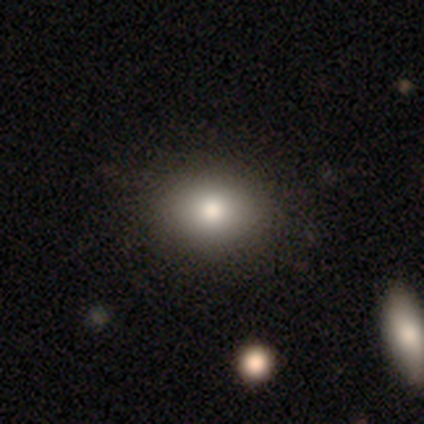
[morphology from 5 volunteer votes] A smooth galaxy with no disk features (100%) that is round (60%).

Vote fractions:
- Smooth or featured? smooth: 100% / featured or disk: 0% / star or artifact: 0%
- How rounded? round: 60% / in between: 40% / cigar-shaped: 0%
- Merging? none: 100% / minor disturbance: 0% / major disturbance: 0% / merger: 0%